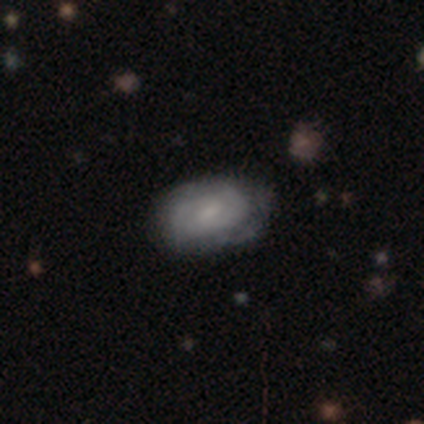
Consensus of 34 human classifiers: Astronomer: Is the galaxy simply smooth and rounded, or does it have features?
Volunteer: featured or disk — 56%.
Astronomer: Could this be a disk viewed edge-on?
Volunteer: no — 100%.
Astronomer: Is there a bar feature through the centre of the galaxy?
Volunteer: weak — 53% (runner-up: no, 47%).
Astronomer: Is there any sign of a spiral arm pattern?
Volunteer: yes — 74%.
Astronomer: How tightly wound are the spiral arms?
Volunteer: tight — 57% (runner-up: medium, 36%).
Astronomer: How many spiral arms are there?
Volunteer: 2 — 50%.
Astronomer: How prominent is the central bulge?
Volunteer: small — 58%.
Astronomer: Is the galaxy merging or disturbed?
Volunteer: none — 75%.